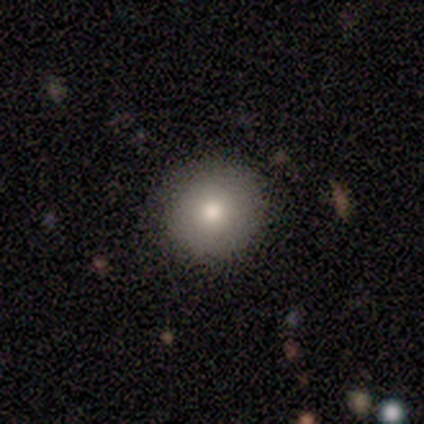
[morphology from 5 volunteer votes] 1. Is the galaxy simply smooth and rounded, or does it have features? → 80% smooth, 20% featured or disk, 0% star or artifact.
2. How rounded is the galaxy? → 100% round, 0% in between, 0% cigar-shaped.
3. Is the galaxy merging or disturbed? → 100% none, 0% minor disturbance, 0% major disturbance, 0% merger.